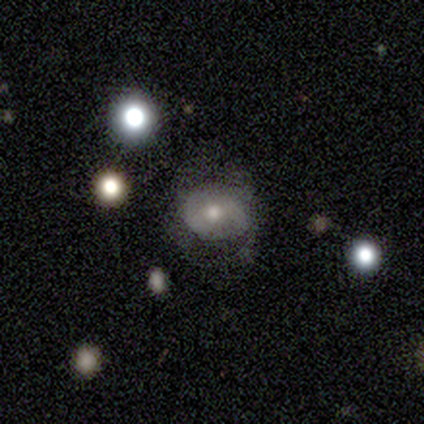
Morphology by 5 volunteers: Smooth or featured: featured or disk — 60% (smooth — 20%)
Edge-on disk: no — 100%
Bar: strong — 33% (tied with weak — 33%; no — 33%)
Spiral arms: yes — 67% (no — 33%)
Spiral winding: medium — 100%
Spiral arm count: 2 — 50% (tied with can't tell — 50%)
Bulge size: moderate — 67% (small — 33%)
Merging: none — 50% (minor disturbance — 25%)